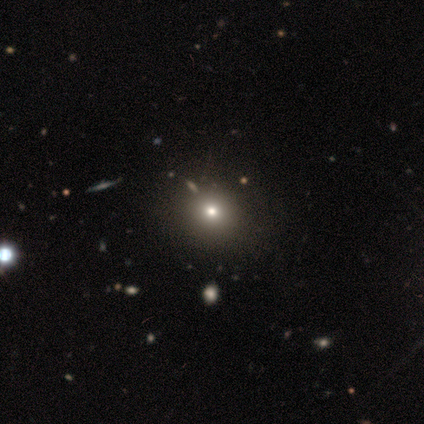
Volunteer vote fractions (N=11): Overall: smooth (73%). How rounded: round (100%). Merging: none (88%).